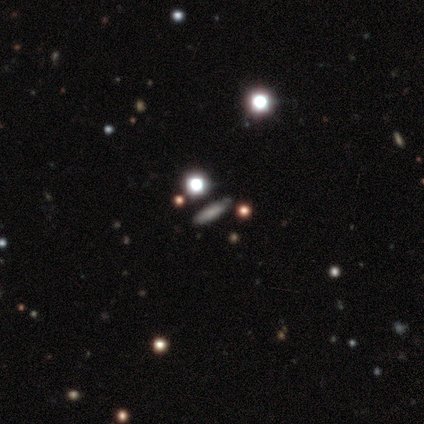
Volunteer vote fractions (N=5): A featured or disk galaxy (60%) viewed edge-on (67%) with no central bulge (100%).

Vote fractions:
- Smooth or featured? featured or disk: 60% / smooth: 20% / star or artifact: 20%
- Edge-on disk? yes: 67% / no: 33%
- Edge-on bulge? none: 100% / boxy: 0% / rounded: 0%
- Merging? none: 75% / minor disturbance: 25% / major disturbance: 0% / merger: 0%